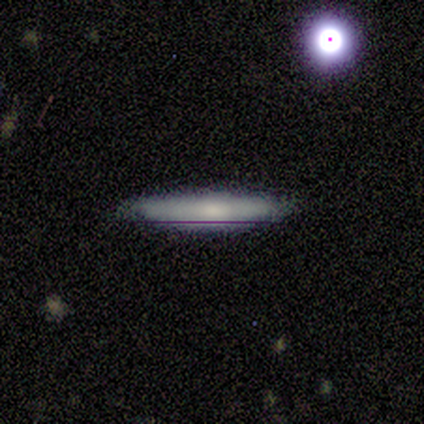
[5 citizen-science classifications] Volunteers were most divided on "smooth or featured": smooth: 80%, featured or disk: 20%, star or artifact: 0%. More confident: how rounded — cigar-shaped (100%); merging — none (80%).